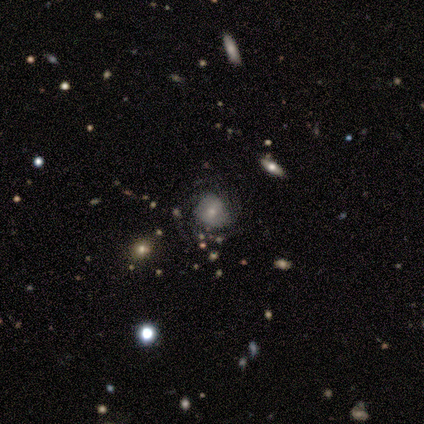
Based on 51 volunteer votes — This is marginally a smooth galaxy (39%). How rounded: clearly round (80%). Merging: likely none (69%).